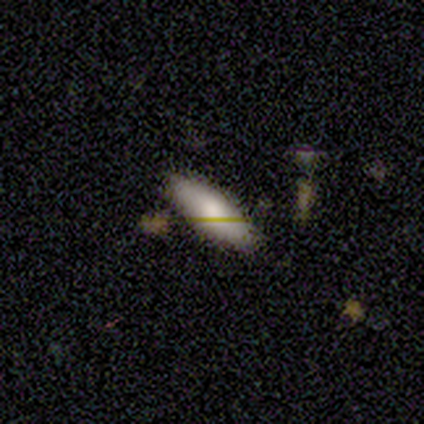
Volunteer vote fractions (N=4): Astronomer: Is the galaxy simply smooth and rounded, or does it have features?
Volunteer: smooth — 100%.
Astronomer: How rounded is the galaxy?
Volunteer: in between — 100%.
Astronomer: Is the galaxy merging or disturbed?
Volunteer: none — 100%.